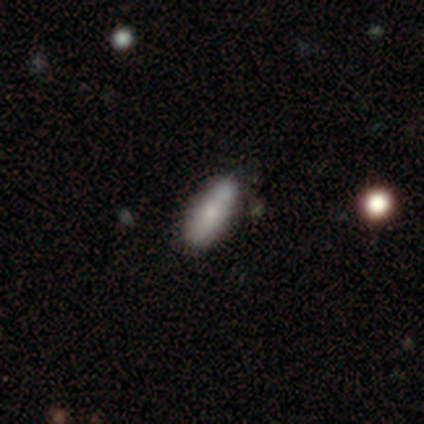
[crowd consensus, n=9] A smooth galaxy with no disk features (56%) that is in between round and cigar-shaped (60%).

Vote fractions:
- Smooth or featured? smooth: 56% / featured or disk: 44% / star or artifact: 0%
- How rounded? in between: 60% / cigar-shaped: 40% / round: 0%
- Merging? none: 78% / minor disturbance: 11% / major disturbance: 11% / merger: 0%